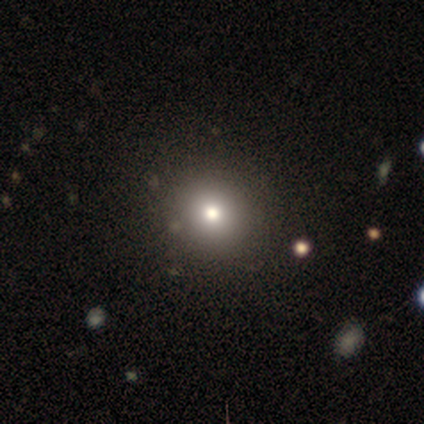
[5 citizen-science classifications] Morphology: type=smooth (100%); roundness=round (100%); merging=none (80%).